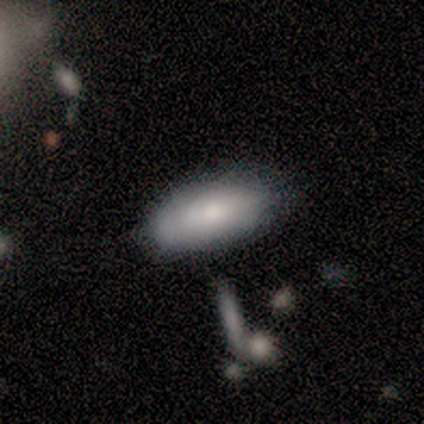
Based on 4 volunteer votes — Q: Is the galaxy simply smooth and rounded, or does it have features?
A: smooth — 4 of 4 (100%).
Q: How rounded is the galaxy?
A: in between — 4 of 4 (100%).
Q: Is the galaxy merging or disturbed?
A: none — 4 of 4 (100%).